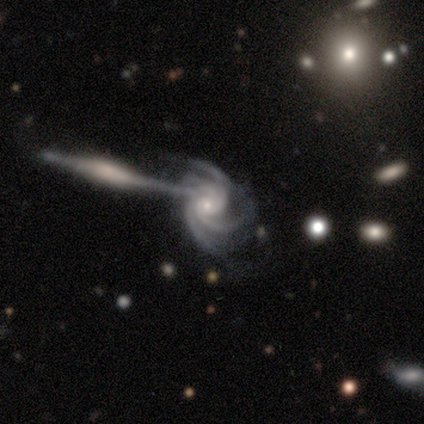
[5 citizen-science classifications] featured or disk 80%, star or artifact 20%, smooth 0%. Down the decision tree: edge-on disk — no (100%); bar — no (100%); spiral arms — yes (100%); spiral arm count — 4 (75%); spiral winding — tight (75%); bulge size — moderate (50%, tied with small); merging — merger (75%).